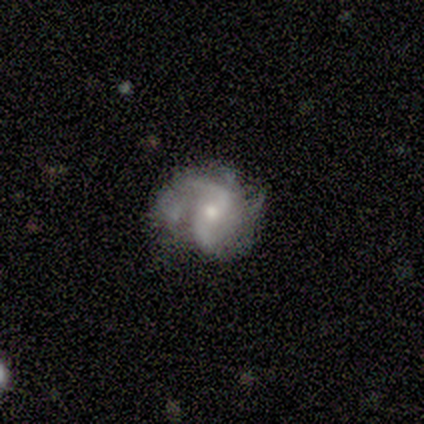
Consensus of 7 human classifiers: Smooth or featured? 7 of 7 (100%) said featured or disk. Edge-on disk? 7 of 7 (100%) said no. Bar? 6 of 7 (86%) said no. Spiral arms? 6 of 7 (86%) said yes. Spiral winding? 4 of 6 (67%) said medium. Spiral arm count? 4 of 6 (67%) said 2. Bulge size? 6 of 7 (86%) said small. Merging? 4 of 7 (57%) said minor disturbance.